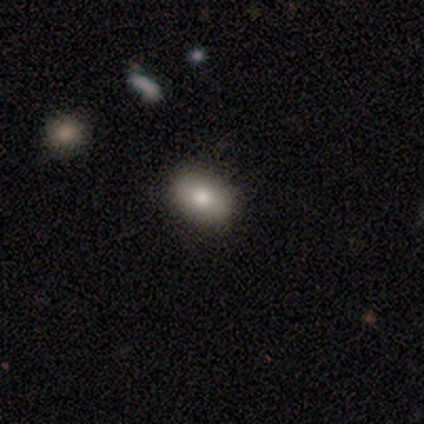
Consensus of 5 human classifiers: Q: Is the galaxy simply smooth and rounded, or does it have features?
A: smooth — 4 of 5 (80%).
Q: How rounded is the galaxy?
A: in between — 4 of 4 (100%).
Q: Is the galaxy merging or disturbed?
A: none — 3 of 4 (75%).